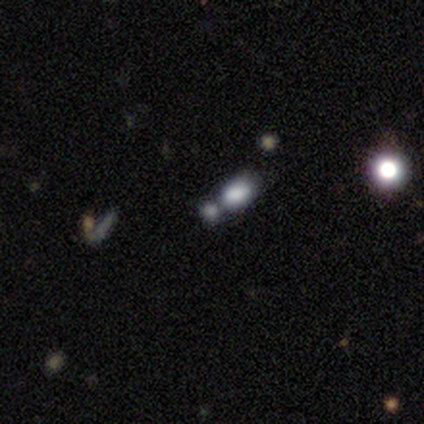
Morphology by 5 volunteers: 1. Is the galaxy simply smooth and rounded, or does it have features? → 80% smooth, 20% star or artifact, 0% featured or disk.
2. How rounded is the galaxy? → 75% in between, 25% round, 0% cigar-shaped.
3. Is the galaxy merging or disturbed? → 50% merger, 25% none, 25% minor disturbance, 0% major disturbance.